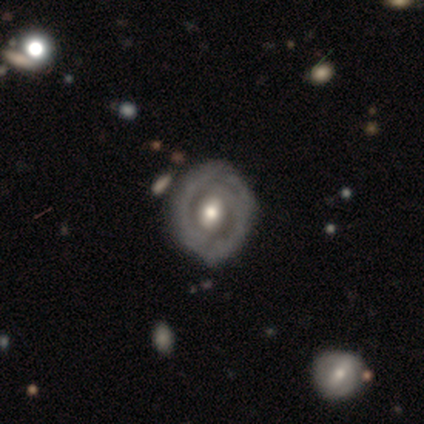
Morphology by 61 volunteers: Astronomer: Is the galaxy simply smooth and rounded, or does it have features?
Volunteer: featured or disk — 80%.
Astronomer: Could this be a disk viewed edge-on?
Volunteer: no — 96%.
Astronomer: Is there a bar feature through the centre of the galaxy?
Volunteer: weak — 38% (runner-up: no, 36%).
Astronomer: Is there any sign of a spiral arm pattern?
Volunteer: yes — 68%.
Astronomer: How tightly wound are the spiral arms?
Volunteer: tight — 72%.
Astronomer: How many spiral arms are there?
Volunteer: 2 — 50% (runner-up: can't tell, 44%).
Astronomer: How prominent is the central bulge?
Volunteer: moderate — 64%.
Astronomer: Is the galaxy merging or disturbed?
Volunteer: none — 74%.